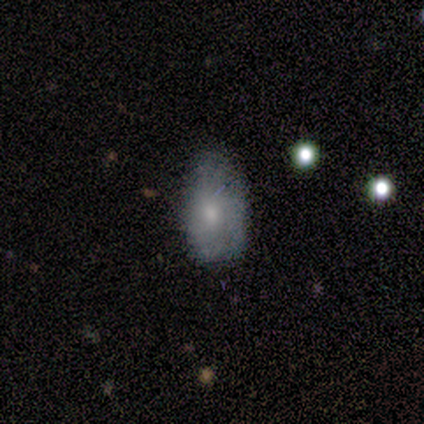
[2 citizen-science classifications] Smooth or featured? smooth (50%, tied with featured or disk)
How rounded? in between (100%)
Merging? none (50%, tied with minor disturbance)